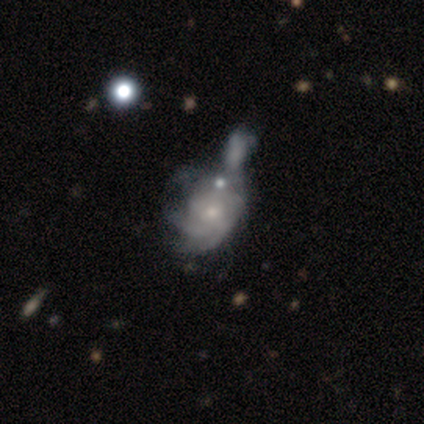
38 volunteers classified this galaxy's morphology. featured or disk 76%, smooth 16%, star or artifact 8%. Down the decision tree: edge-on disk — no (100%); bar — no (66%); spiral arms — yes (83%); spiral arm count — can't tell (62%); spiral winding — tight (50%); bulge size — small (59%); merging — merger (57%).